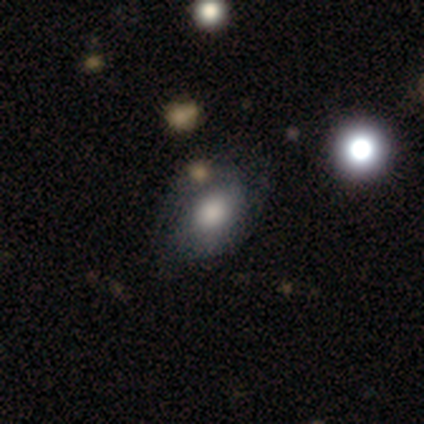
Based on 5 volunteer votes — This appears to be a smooth galaxy with no disk features (40%, tied with star or artifact) that is in between round and cigar-shaped (100%). Merging: minor disturbance (67%).